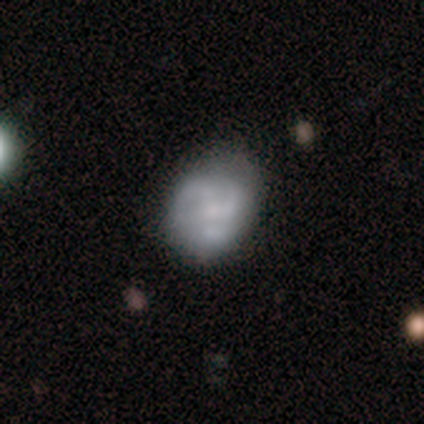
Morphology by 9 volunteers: Smooth or featured: featured or disk — 100%
Edge-on disk: no — 100%
Bar: no — 78% (weak — 22%)
Spiral arms: yes — 78% (no — 22%)
Spiral winding: medium — 86% (tight — 14%)
Spiral arm count: 3 — 71% (2 — 14%)
Bulge size: small — 44% (large — 22%)
Merging: none — 78% (minor disturbance — 11%)